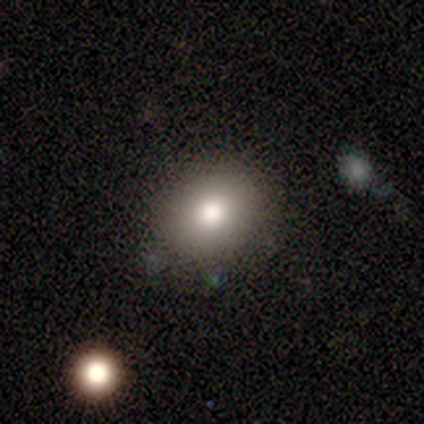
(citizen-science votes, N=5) smooth 80%, featured or disk 20%, star or artifact 0%. Down the decision tree: how rounded — round (50%, tied with in between); merging — none (80%).